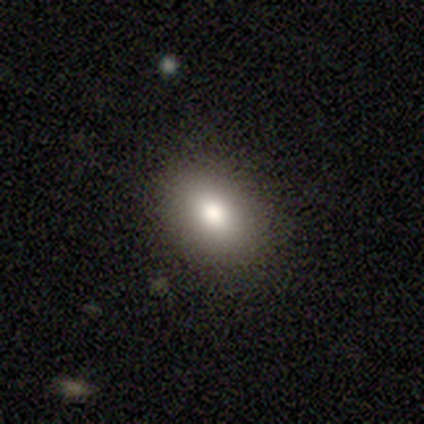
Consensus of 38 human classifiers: This appears to be a smooth galaxy with no disk features (66%) that is in between round and cigar-shaped (68%). Merging: none (82%).